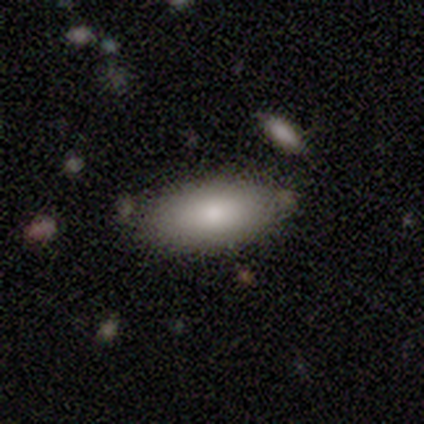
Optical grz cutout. It shows a smooth galaxy with no disk features (65%) that is in between round and cigar-shaped (88%). Merging: none (74%).